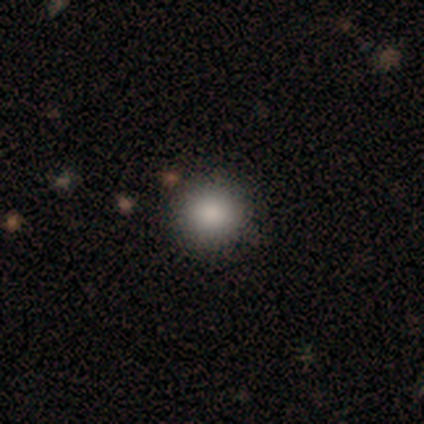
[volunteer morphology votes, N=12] smooth 100%, featured or disk 0%, star or artifact 0%. Down the decision tree: how rounded — round (83%); merging — none (100%).